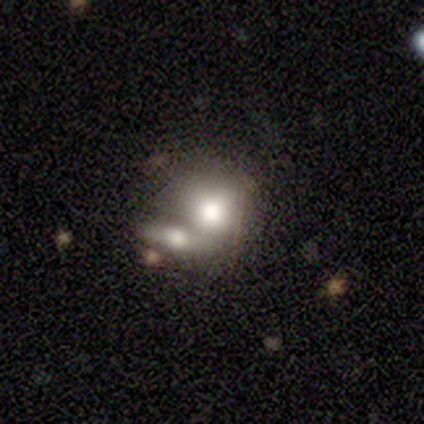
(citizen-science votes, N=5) Morphology: type=smooth (80%); roundness=round (50%, tied with in between); merging=merger (60%).